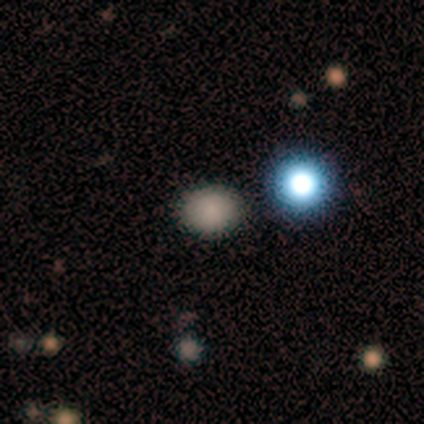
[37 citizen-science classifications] This is likely a smooth galaxy (62%). How rounded: possibly in between (57%). Merging: clearly none (92%).